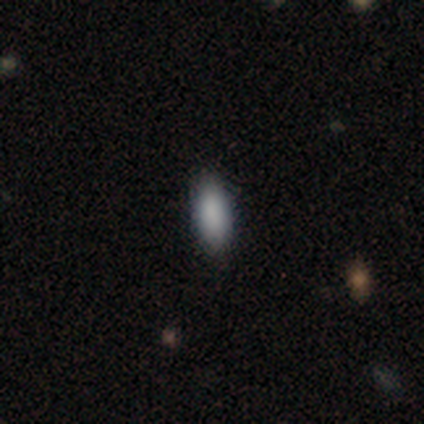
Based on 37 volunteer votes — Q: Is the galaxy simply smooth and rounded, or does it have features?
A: smooth — 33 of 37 (89%).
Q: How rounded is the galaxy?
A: in between — 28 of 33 (85%).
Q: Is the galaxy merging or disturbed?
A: none — 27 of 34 (79%).